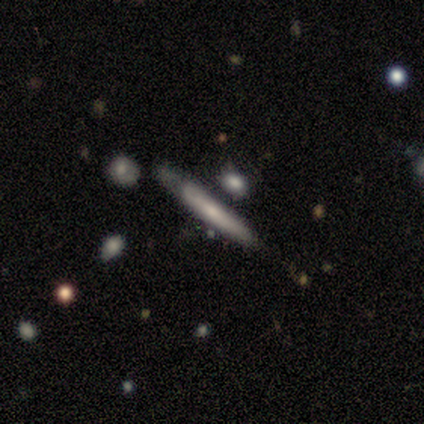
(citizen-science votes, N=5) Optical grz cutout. It shows a featured or disk galaxy (80%) viewed edge-on (75%) with no central bulge (67%). Merging: minor disturbance (40%, tied with major disturbance).